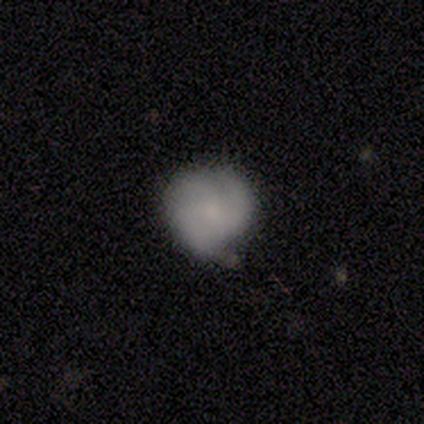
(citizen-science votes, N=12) This appears to be a smooth galaxy with no disk features (67%) that is round (100%). Merging: none (50%, tied with minor disturbance).